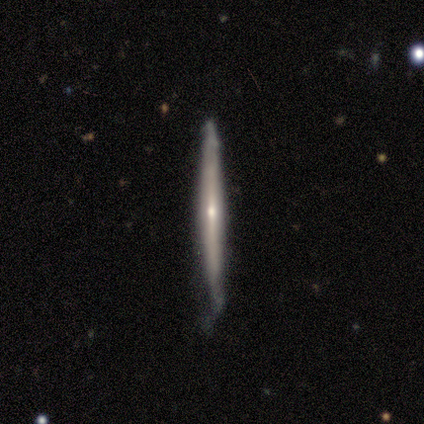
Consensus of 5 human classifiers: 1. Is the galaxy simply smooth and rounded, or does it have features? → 80% featured or disk, 20% smooth, 0% star or artifact.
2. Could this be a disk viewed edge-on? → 100% yes, 0% no.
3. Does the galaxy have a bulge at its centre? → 50% rounded, 25% boxy, 25% none.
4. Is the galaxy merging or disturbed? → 60% none, 40% minor disturbance, 0% major disturbance, 0% merger.